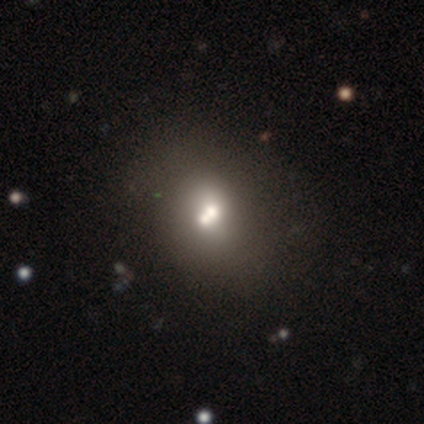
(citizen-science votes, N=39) This is possibly a smooth galaxy (59%). How rounded: likely round (61%). Merging: possibly merger (50%).